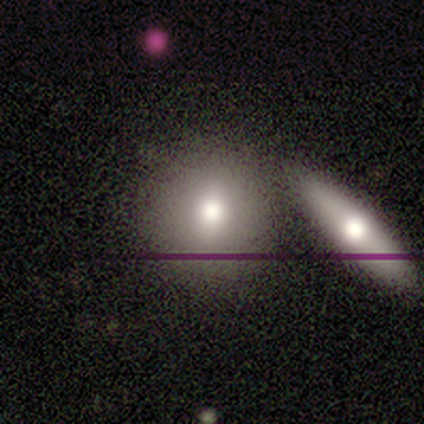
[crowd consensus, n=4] Smooth or featured?
  - smooth: 75% *
  - featured or disk: 25%
  - star or artifact: 0%
How rounded?
  - round: 67% *
  - in between: 33%
  - cigar-shaped: 0%
Merging?
  - none: 50% * (tied)
  - merger: 50% * (tied)
  - minor disturbance: 0%
  - major disturbance: 0%